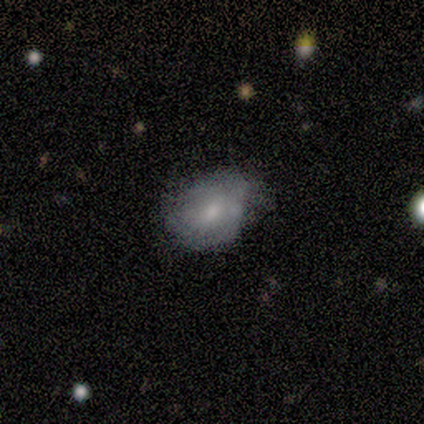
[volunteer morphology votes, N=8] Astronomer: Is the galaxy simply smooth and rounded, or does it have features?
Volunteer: featured or disk — 62%.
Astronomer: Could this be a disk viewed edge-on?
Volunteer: no — 80%.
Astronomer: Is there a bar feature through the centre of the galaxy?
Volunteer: weak — 50%, tied with no at 50%.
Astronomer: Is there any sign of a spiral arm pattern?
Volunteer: yes — 75%.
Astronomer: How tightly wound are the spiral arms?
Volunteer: tight — 67%.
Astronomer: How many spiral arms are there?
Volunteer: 2 — 67%.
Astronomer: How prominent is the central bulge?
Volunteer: moderate — 50%, tied with small at 50%.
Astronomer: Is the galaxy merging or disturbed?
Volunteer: minor disturbance — 62%.